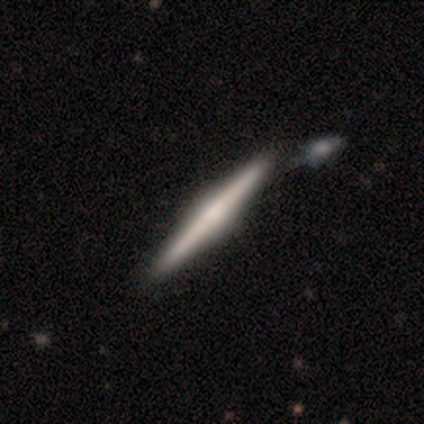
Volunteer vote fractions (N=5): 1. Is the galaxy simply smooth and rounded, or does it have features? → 80% featured or disk, 20% star or artifact, 0% smooth.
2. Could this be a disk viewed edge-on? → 100% yes, 0% no.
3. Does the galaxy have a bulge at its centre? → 75% rounded, 25% none, 0% boxy.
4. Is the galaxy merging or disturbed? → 75% none, 25% minor disturbance, 0% major disturbance, 0% merger.